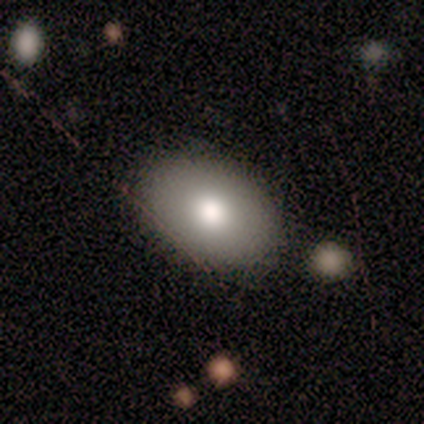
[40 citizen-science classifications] Smooth or featured?
  - smooth: 88% *
  - featured or disk: 8%
  - star or artifact: 5%
How rounded?
  - in between: 91% *
  - round: 9%
  - cigar-shaped: 0%
Merging?
  - none: 89% *
  - minor disturbance: 11%
  - major disturbance: 0%
  - merger: 0%